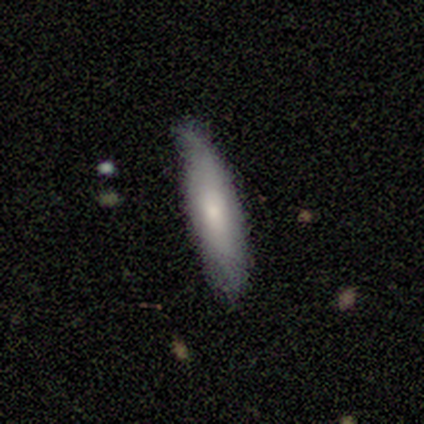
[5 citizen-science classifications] Smooth or featured? 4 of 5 (80%) said smooth. How rounded? 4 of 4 (100%) said cigar-shaped. Merging? 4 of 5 (80%) said none.